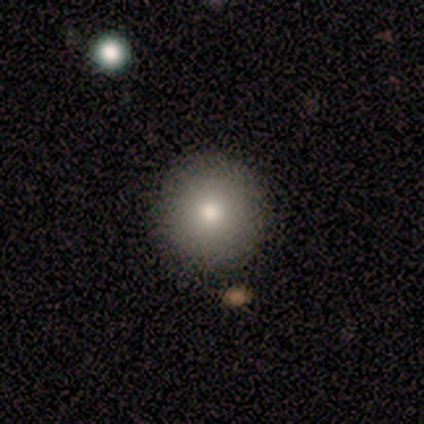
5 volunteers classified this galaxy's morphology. This is clearly a smooth galaxy (100%). How rounded: clearly round (100%). Merging: clearly none (100%).